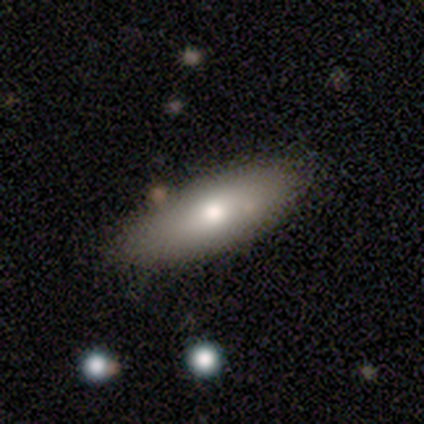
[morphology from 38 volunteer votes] smooth_or_featured: smooth (p=0.74) [alt: featured or disk p=0.18]
how_rounded: in between (p=0.68) [alt: cigar-shaped p=0.25]
merging: none (p=0.77) [alt: minor disturbance p=0.11]